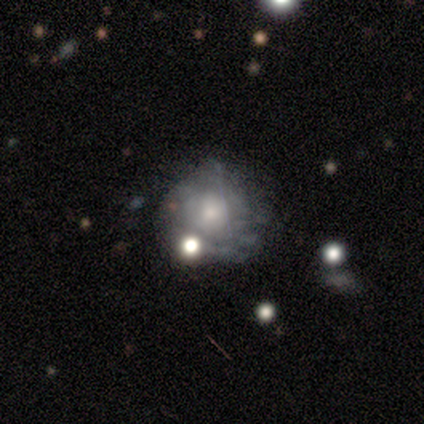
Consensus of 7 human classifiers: This is possibly a featured or disk galaxy (57%). It is clearly not viewed edge-on (100%). Bar: clearly no (100%). Spiral arm pattern: likely yes (75%). Spiral arm count: likely can't tell (67%). Spiral winding: clearly tight (100%). Central bulge: likely small (75%). Merging: possibly none (50%).